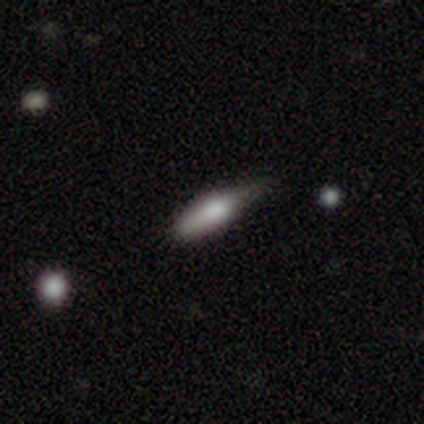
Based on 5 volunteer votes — A smooth galaxy with no disk features (100%) that is in between round and cigar-shaped (80%).

Vote fractions:
- Smooth or featured? smooth: 100% / featured or disk: 0% / star or artifact: 0%
- How rounded? in between: 80% / cigar-shaped: 20% / round: 0%
- Merging? none: 100% / minor disturbance: 0% / major disturbance: 0% / merger: 0%